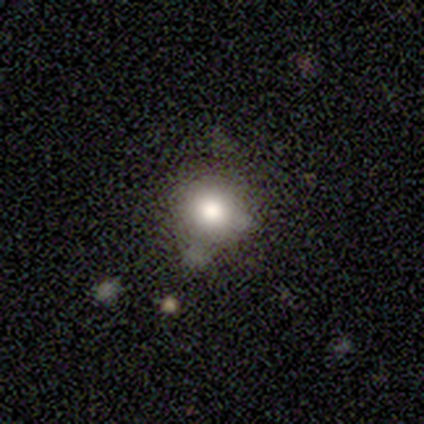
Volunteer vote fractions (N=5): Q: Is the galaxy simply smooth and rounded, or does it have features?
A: smooth — 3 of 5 (60%).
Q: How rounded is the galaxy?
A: round — 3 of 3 (100%).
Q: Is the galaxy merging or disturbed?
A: none — 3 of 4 (75%).